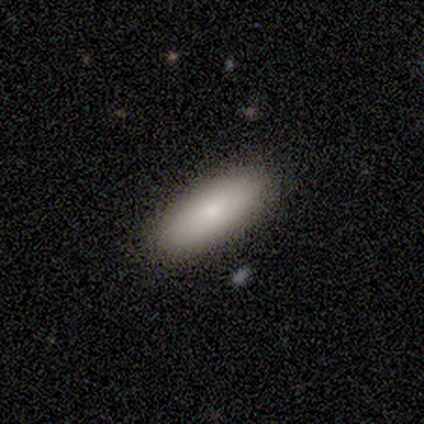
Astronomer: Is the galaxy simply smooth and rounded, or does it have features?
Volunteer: smooth — 80%.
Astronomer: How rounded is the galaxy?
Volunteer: in between — 75%.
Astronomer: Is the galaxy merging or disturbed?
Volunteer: none — 100%.